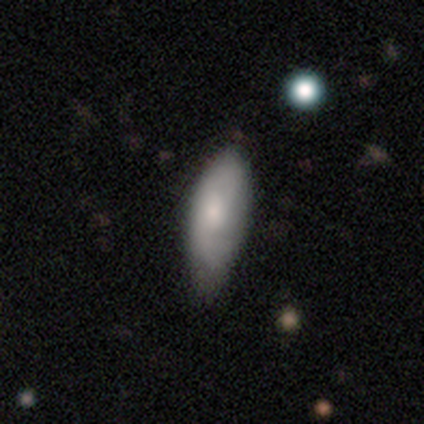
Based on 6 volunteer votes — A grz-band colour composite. It shows a smooth galaxy with no disk features (100%) that is in between round and cigar-shaped (100%). Merging: none (67%).